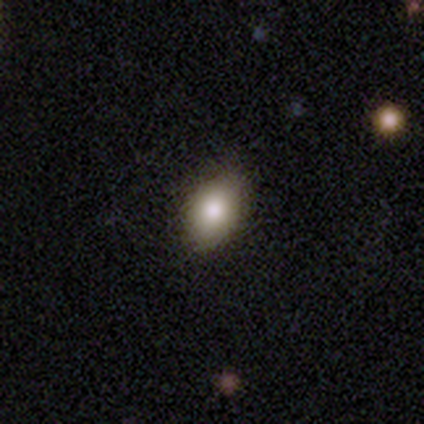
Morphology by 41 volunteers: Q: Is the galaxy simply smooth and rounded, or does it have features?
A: smooth — 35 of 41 (85%).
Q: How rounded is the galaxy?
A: in between — 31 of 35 (89%).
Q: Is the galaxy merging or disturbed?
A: none — 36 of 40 (90%).